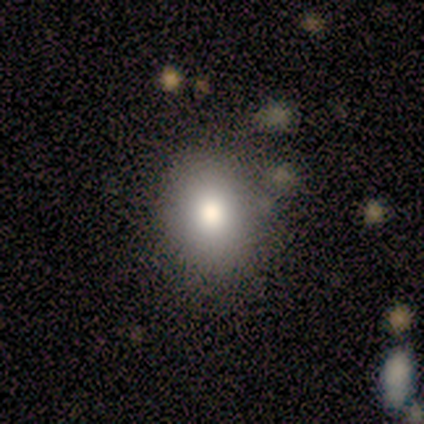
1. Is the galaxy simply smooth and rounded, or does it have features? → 100% smooth, 0% featured or disk, 0% star or artifact.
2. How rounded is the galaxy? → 50% round (tied), 50% in between (tied), 0% cigar-shaped.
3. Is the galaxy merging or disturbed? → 75% none, 25% minor disturbance, 0% major disturbance, 0% merger.